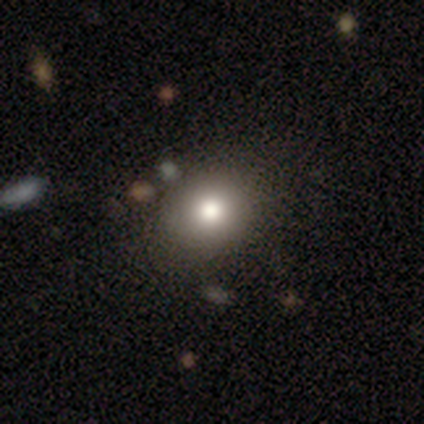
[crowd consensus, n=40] smooth-or-featured: smooth: 72% | star or artifact: 15% | featured or disk: 12%
  how-rounded: round: 83% | in between: 17% | cigar-shaped: 0%
  merging: none: 88% | minor disturbance: 9% | merger: 3% | major disturbance: 0%